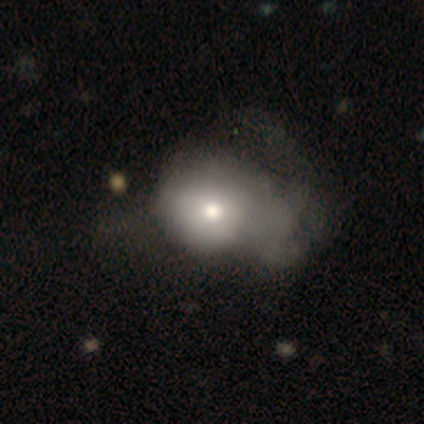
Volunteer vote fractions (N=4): Smooth or featured? 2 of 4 (50%) said smooth. How rounded? 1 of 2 (50%, tied with in between) said round. Merging? 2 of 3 (67%) said major disturbance.